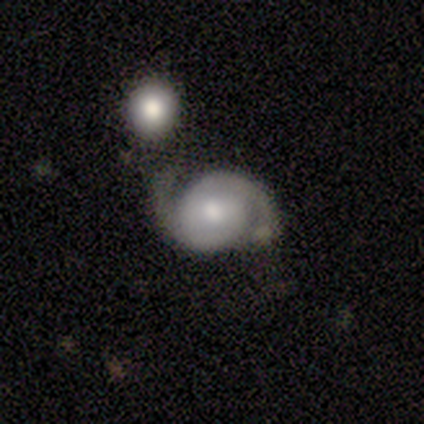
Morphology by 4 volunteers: Smooth or featured: featured or disk — 75% (smooth — 25%)
Edge-on disk: no — 100%
Bar: no — 100%
Spiral arms: yes — 100%
Spiral winding: medium — 67% (tight — 33%)
Spiral arm count: 2 — 100%
Bulge size: small — 67% (moderate — 33%)
Merging: none — 50% (minor disturbance — 25%)